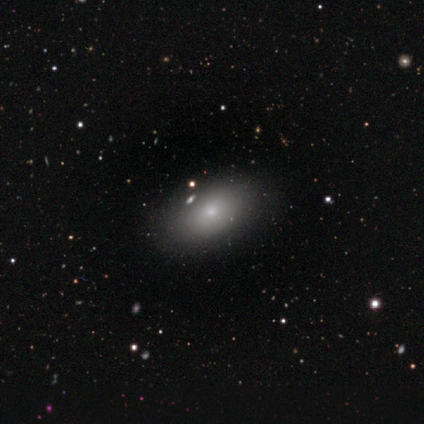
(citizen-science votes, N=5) Volunteers were most divided on "smooth or featured" (2-way tie): smooth: 40%, featured or disk: 40%, star or artifact: 20%. More confident: how rounded — in between (100%); merging — none (75%).